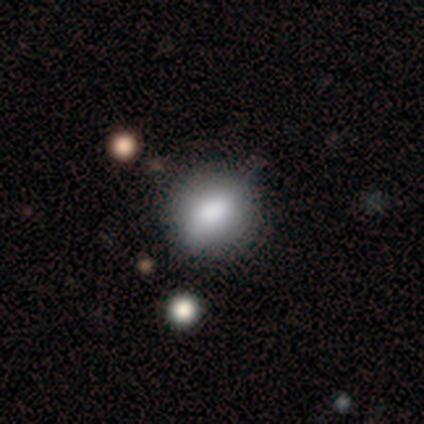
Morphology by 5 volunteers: Smooth or featured? smooth (80%)
How rounded? round (75%)
Merging? none (60%)